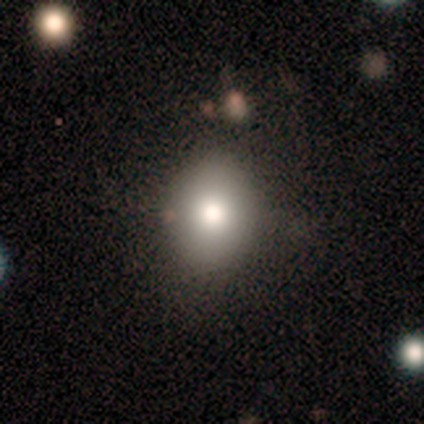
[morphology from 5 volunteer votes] Smooth or featured?
  - smooth: 100% *
  - featured or disk: 0%
  - star or artifact: 0%
How rounded?
  - in between: 80% *
  - round: 20%
  - cigar-shaped: 0%
Merging?
  - none: 60% *
  - minor disturbance: 40%
  - major disturbance: 0%
  - merger: 0%